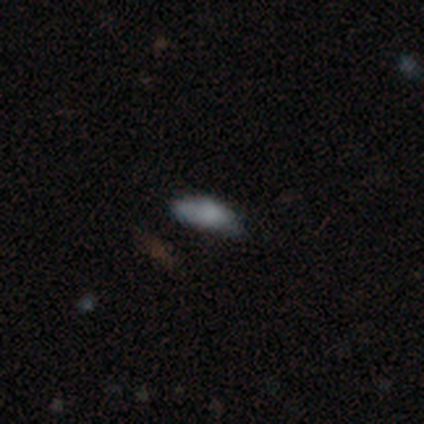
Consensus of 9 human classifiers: smooth-or-featured: smooth: 100% | featured or disk: 0% | star or artifact: 0%
  how-rounded: in between: 100% | round: 0% | cigar-shaped: 0%
  merging: none: 56% | minor disturbance: 33% | major disturbance: 11% | merger: 0%